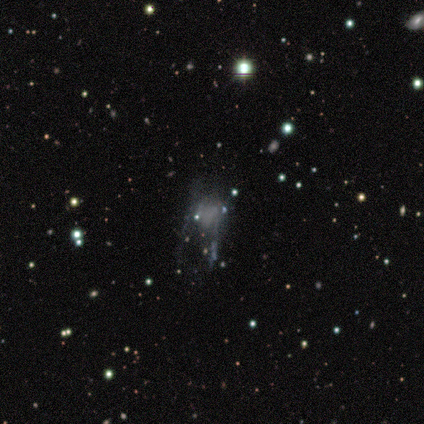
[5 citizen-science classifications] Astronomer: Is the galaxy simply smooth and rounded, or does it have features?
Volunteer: featured or disk — 60% (runner-up: star or artifact, 40%).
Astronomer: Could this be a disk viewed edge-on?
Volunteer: no — 100%.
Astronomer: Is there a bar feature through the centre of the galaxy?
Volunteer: no — 67%.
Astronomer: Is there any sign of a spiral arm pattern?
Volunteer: no — 67%.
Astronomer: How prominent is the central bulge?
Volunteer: none — 100%.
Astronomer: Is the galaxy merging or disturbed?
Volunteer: major disturbance — 67%.